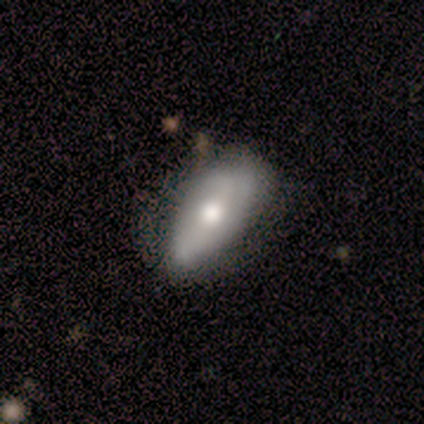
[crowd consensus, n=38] This appears to be a smooth galaxy with no disk features (58%) that is in between round and cigar-shaped (91%). Merging: none (54%).